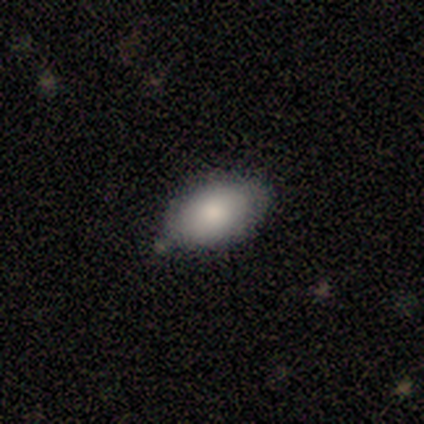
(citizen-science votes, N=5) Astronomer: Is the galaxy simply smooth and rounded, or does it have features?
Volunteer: smooth — 60%.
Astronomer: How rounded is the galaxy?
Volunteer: in between — 100%.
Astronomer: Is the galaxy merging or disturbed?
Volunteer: none — 50%.